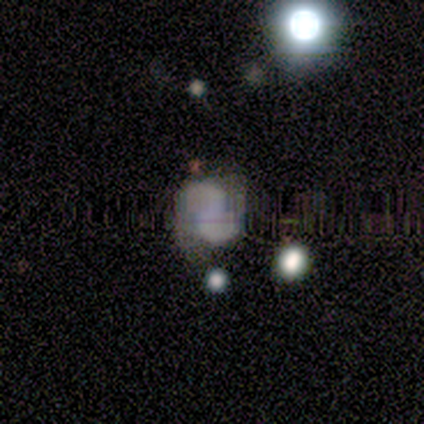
smooth 50% (tied), star or artifact 50% (tied), featured or disk 0%. Down the decision tree: how rounded — in between (100%); merging — none (100%).